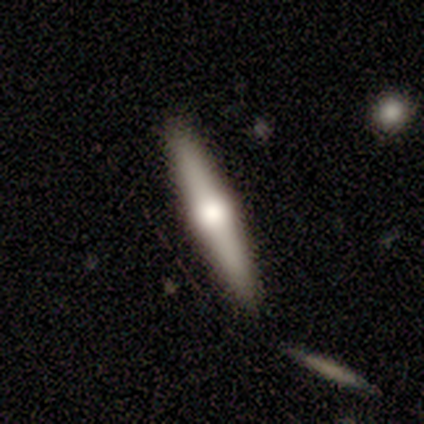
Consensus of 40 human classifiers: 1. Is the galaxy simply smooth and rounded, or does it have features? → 78% featured or disk, 18% smooth, 5% star or artifact.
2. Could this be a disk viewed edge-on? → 97% yes, 3% no.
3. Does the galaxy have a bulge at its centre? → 100% rounded, 0% boxy, 0% none.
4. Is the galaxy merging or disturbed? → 84% none, 11% merger, 5% minor disturbance, 0% major disturbance.